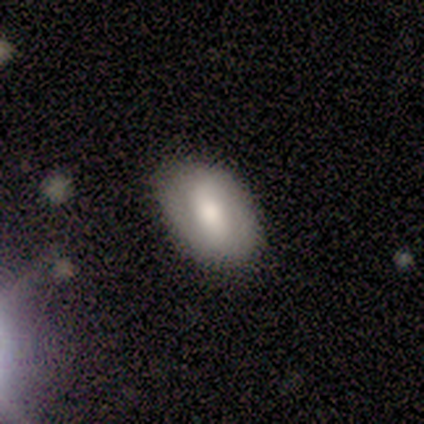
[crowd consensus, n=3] Smooth or featured? smooth (67%)
How rounded? in between (100%)
Merging? none (67%)